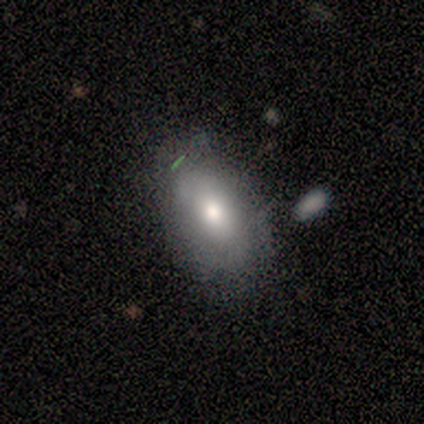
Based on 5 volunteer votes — smooth_or_featured: smooth (p=1.00)
how_rounded: in between (p=1.00)
merging: none (p=0.40) [tied with: major disturbance p=0.40]